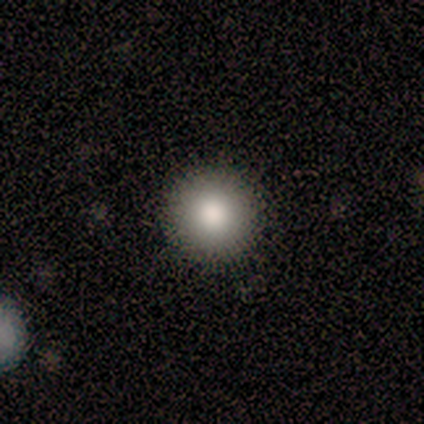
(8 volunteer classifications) Morphology: type=smooth (75%); roundness=round (83%); merging=none (100%).